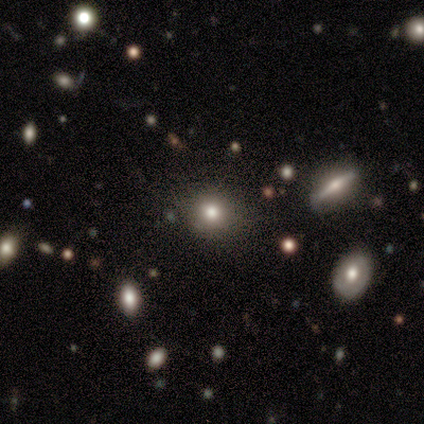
Smooth or featured?
  - smooth: 60% *
  - featured or disk: 20%
  - star or artifact: 20%
How rounded?
  - round: 100% *
  - in between: 0%
  - cigar-shaped: 0%
Merging?
  - none: 100% *
  - minor disturbance: 0%
  - major disturbance: 0%
  - merger: 0%